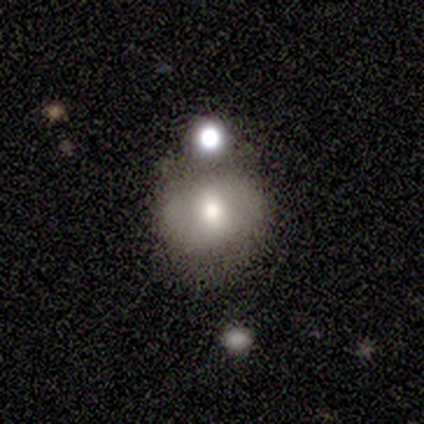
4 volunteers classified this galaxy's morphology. Smooth or featured? smooth (75%)
How rounded? round (100%)
Merging? none (50%)